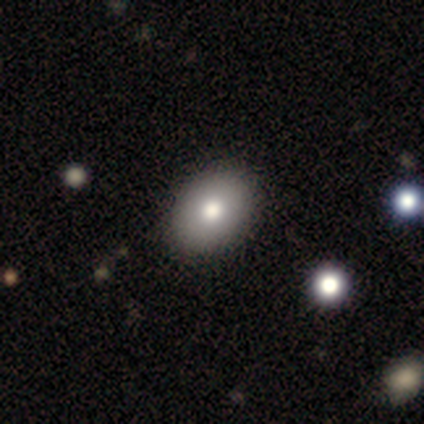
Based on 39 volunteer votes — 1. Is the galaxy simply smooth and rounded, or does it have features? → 92% smooth, 5% star or artifact, 3% featured or disk.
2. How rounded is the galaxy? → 78% in between, 22% round, 0% cigar-shaped.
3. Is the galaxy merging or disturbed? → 65% none, 5% minor disturbance, 0% major disturbance, 0% merger.